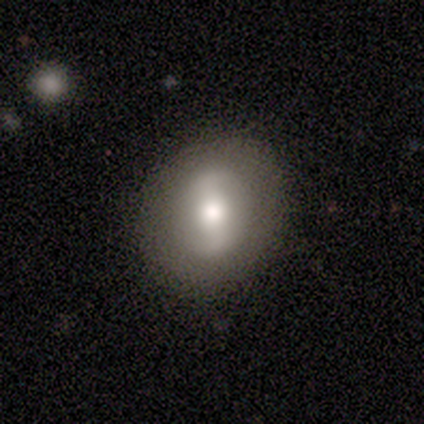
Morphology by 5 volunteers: This is clearly a featured or disk galaxy (80%). It is clearly not viewed edge-on (100%). Bar: likely strong (75%). Spiral arm pattern: likely no (75%). Central bulge: clearly moderate (100%). Merging: clearly none (100%).